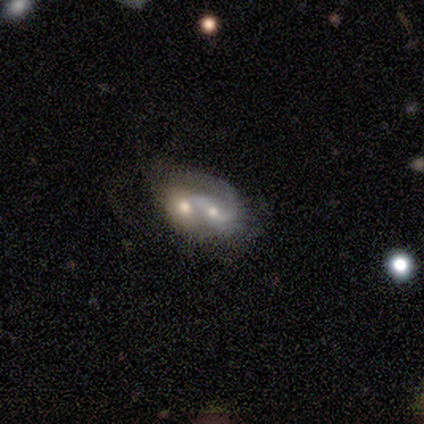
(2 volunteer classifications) Smooth or featured? featured or disk (100%)
Edge-on disk? no (100%)
Bar? strong (50%, tied with no)
Spiral arms? yes (100%)
Spiral winding? medium (100%)
Spiral arm count? 2 (50%, tied with can't tell)
Bulge size? moderate (50%, tied with small)
Merging? merger (100%)